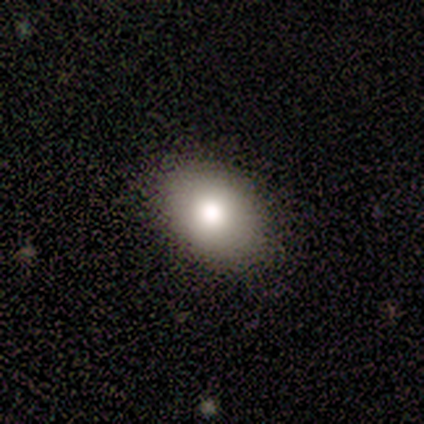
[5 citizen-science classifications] This appears to be a smooth galaxy with no disk features (80%) that is in between round and cigar-shaped (100%). Merging: none (100%).